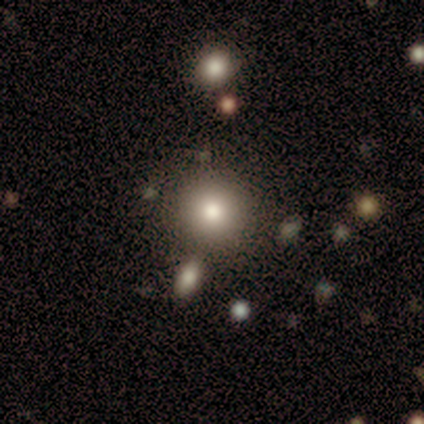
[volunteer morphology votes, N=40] type=smooth (90%); roundness=round (97%); merging=none (84%).